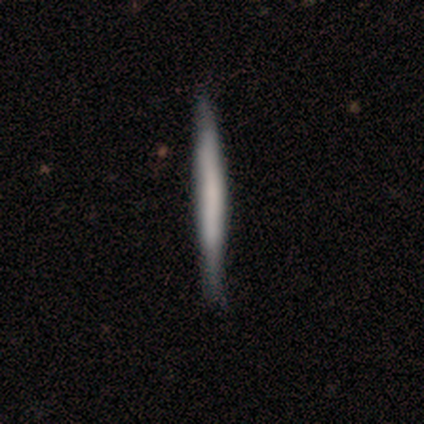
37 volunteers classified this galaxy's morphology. Volunteers were most divided on "smooth or featured": smooth: 59%, featured or disk: 38%, star or artifact: 3%. More confident: how rounded — cigar-shaped (100%); merging — none (50%).